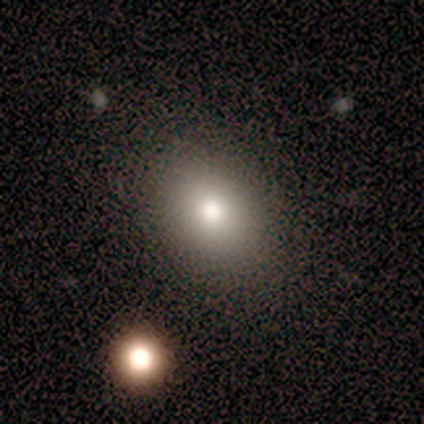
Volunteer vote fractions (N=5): smooth 80%, featured or disk 20%, star or artifact 0%. Down the decision tree: how rounded — round (100%); merging — none (100%).